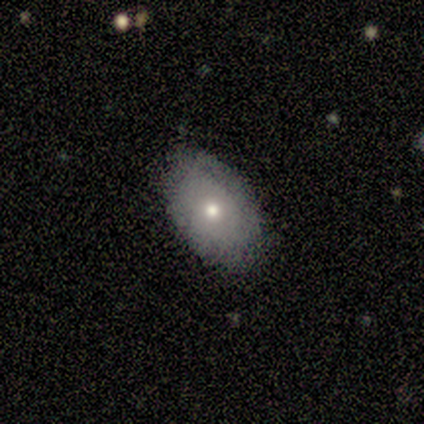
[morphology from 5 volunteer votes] Smooth or featured? smooth (80%)
How rounded? in between (100%)
Merging? none (80%)